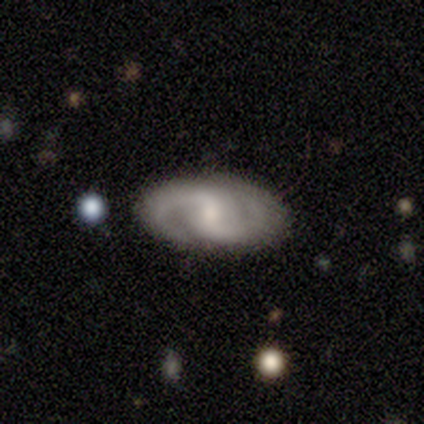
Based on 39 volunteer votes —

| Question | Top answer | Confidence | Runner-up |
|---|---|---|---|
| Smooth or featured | featured or disk | 77% | smooth (21%) |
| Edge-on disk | no | 100% | — |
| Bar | weak | 50% | no (40%) |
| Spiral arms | yes | 100% | — |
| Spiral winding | medium | 70% | loose (20%) |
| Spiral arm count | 2 | 97% | 3 (3%) |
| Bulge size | small | 47% | moderate (33%) |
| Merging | none | 74% | minor disturbance (18%) |